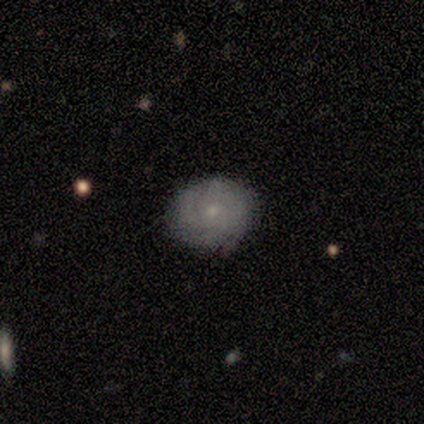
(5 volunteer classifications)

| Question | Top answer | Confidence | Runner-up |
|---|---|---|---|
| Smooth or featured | featured or disk | 60% | smooth (40%) |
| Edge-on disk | no | 100% | — |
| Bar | no | 100% | — |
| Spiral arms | yes | 100% | — |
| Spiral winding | medium | 67% | tight (33%) |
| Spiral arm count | can't tell | 67% | 3 (33%) |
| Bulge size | small | 100% | — |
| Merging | none | 80% | minor disturbance (20%) |